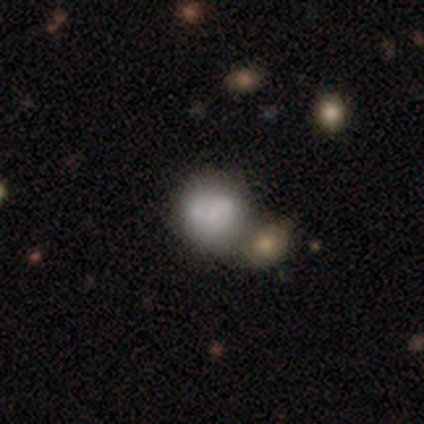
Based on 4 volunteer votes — Morphology: type=smooth (75%); roundness=round (67%); merging=minor disturbance (50%, tied with merger).